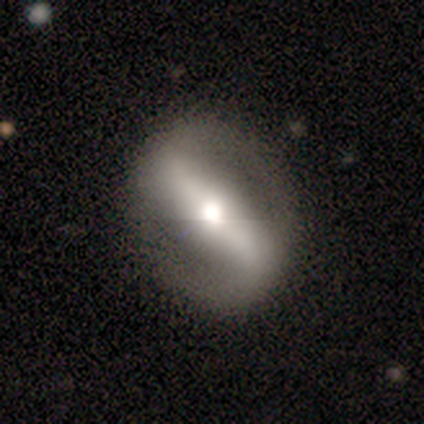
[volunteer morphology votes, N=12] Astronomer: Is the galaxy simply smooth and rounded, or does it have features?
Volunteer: featured or disk — 92%.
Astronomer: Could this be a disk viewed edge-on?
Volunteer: no — 73%.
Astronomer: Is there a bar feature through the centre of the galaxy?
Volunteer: strong — 88%.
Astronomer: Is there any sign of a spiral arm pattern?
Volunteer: yes — 62%.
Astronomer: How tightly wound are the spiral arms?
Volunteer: medium — 40%, tied with loose at 40%.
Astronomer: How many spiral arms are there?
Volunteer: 2 — 100%.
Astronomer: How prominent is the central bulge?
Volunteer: moderate — 75%.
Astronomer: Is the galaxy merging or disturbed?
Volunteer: none — 100%.